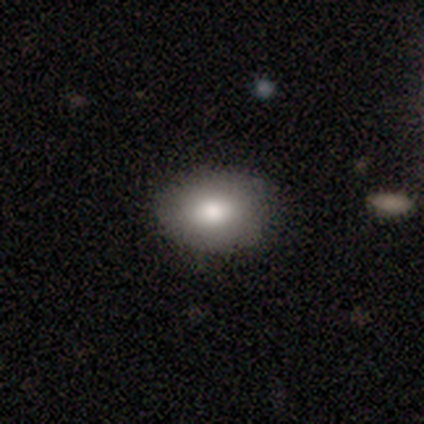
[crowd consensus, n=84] Volunteers were most divided on "how rounded": in between: 80%, round: 20%, cigar-shaped: 0%. More confident: smooth or featured — smooth (83%); merging — none (81%).